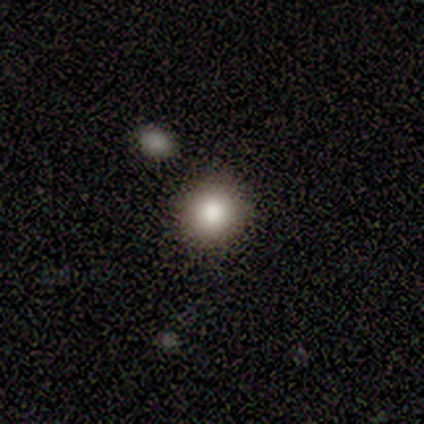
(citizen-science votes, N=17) Smooth or featured? smooth (82%)
How rounded? round (93%)
Merging? none (73%)